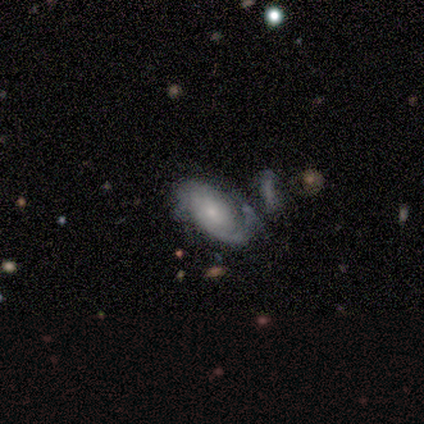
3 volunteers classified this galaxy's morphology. This is clearly a featured or disk galaxy (100%). It is clearly not viewed edge-on (100%). Bar: likely no (67%). Spiral arm pattern: clearly yes (100%). Spiral arm count: likely 1 (67%). Spiral winding: likely tight (67%). Central bulge: clearly small (100%). Merging: marginally none (33%, tied with minor disturbance and merger).